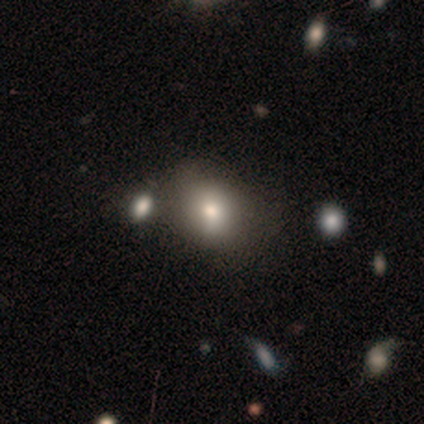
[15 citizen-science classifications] smooth-or-featured: smooth: 100% | featured or disk: 0% | star or artifact: 0%
  how-rounded: in between: 60% | round: 40% | cigar-shaped: 0%
  merging: none: 60% | minor disturbance: 27% | merger: 13% | major disturbance: 0%